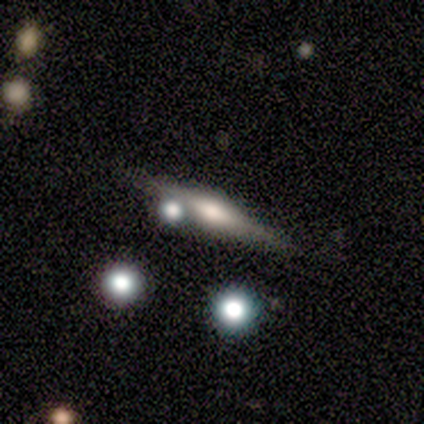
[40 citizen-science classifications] This appears to be a featured or disk galaxy (85%) viewed edge-on (100%) with a rounded central bulge (79%). Merging: none (62%).